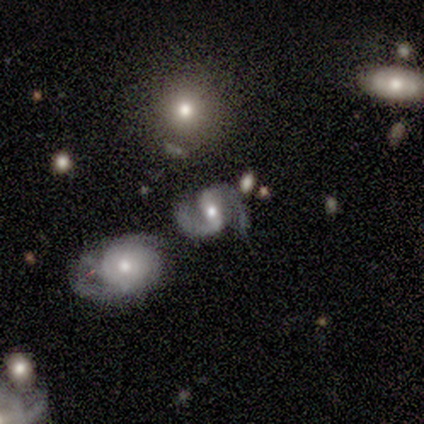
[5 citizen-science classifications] smooth_or_featured: featured or disk (p=0.80) [alt: smooth p=0.20]
disk_edge_on: no (p=1.00)
bar: weak (p=1.00)
has_spiral_arms: yes (p=0.75) [alt: no p=0.25]
spiral_winding: medium (p=0.67) [alt: loose p=0.33]
spiral_arm_count: 2 (p=1.00)
bulge_size: moderate (p=0.50) [tied with: small p=0.50]
merging: none (p=0.60) [alt: minor disturbance p=0.20]